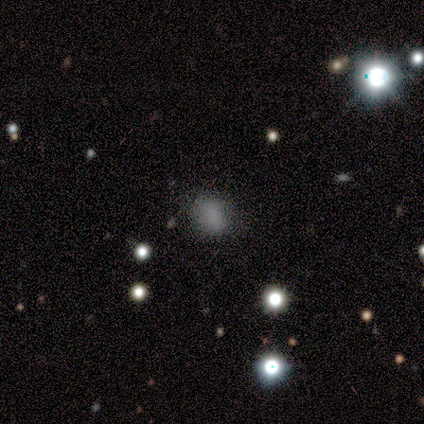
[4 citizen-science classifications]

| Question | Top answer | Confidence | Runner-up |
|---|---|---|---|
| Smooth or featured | smooth | 75% | star or artifact (25%) |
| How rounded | in between | 100% | — |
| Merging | none | 100% | — |